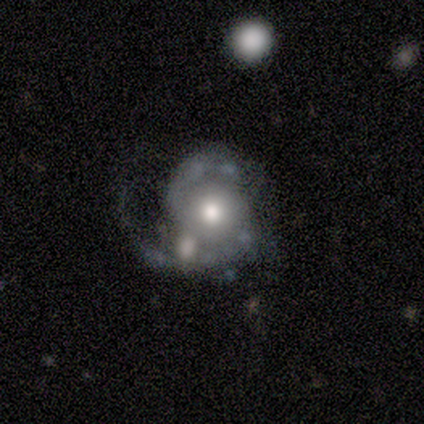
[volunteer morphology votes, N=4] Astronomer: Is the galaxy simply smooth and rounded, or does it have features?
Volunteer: featured or disk — 100%.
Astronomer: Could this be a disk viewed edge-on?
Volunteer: no — 100%.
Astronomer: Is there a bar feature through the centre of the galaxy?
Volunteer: no — 50%.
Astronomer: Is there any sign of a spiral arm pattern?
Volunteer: yes — 100%.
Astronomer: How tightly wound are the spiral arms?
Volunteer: loose — 50%.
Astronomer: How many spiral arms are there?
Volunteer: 2 — 100%.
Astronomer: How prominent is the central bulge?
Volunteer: moderate — 75%.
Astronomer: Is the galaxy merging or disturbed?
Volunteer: none — 75%.